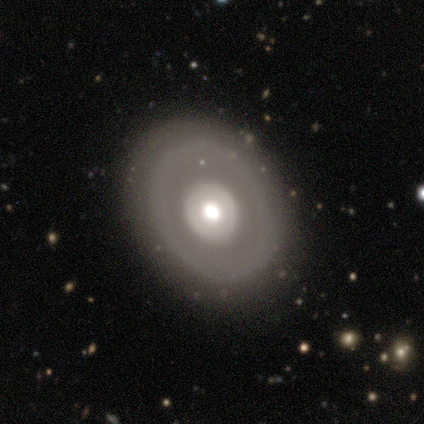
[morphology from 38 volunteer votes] Overall: featured or disk (61%; smooth 34%). Edge-on disk: no (96%). Bar: no (95%). Spiral arms: no (91%). Bulge size: moderate (55%; large 36%). Merging: none (97%).